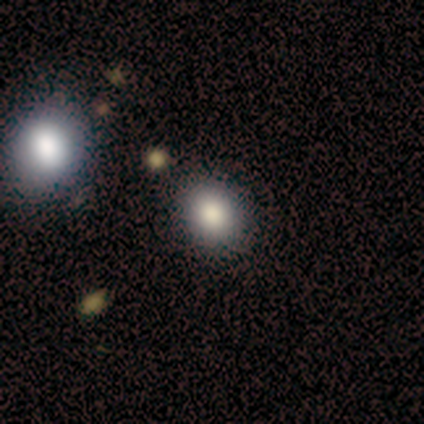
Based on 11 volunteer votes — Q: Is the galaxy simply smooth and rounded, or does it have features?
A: smooth — 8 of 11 (73%).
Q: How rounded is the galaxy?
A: round — 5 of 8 (62%).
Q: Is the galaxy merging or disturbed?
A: none — 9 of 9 (100%).